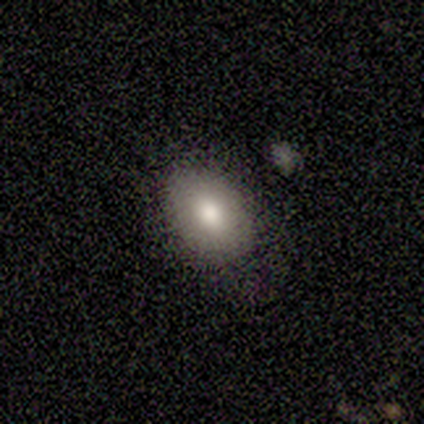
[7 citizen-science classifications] This appears to be a smooth galaxy with no disk features (86%) that is in between round and cigar-shaped (67%). Merging: none (67%).